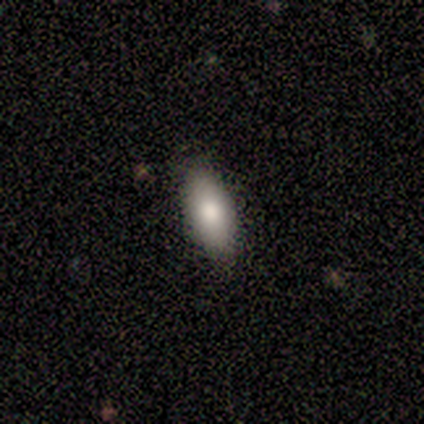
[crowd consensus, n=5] This appears to be a smooth galaxy with no disk features (80%) that is in between round and cigar-shaped (75%). Merging: none (100%).